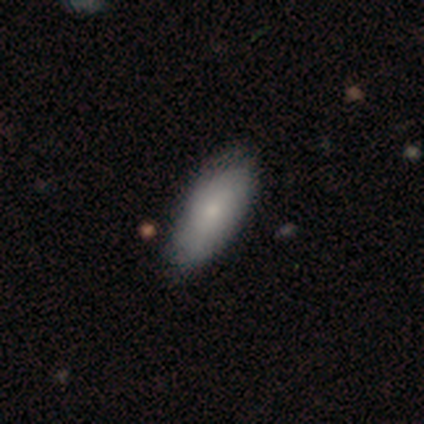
smooth 72%, featured or disk 28%, star or artifact 0%. Down the decision tree: how rounded — in between (93%); merging — none (69%).